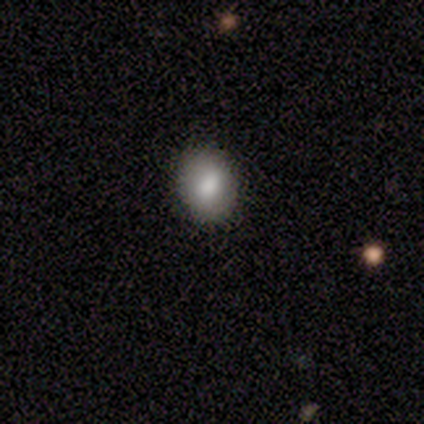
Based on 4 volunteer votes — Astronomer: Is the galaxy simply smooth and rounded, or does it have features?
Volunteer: smooth — 100%.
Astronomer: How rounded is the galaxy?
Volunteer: in between — 75%.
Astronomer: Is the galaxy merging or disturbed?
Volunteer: none — 75%.